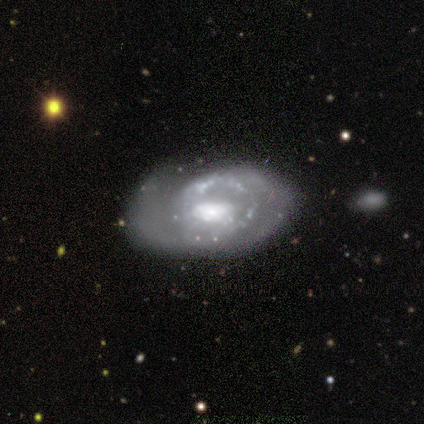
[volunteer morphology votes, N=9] Smooth or featured? featured or disk (89%)
Edge-on disk? no (100%)
Bar? no (50%)
Spiral arms? no (62%)
Bulge size? large (38%)
Merging? none (50%)